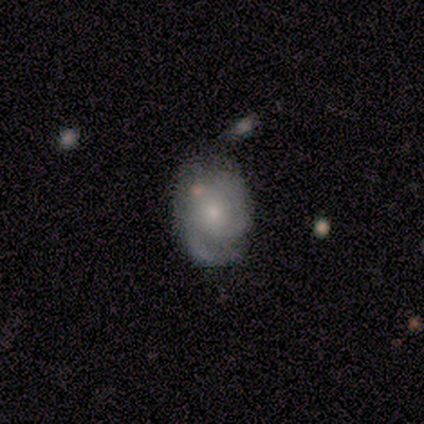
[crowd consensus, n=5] Smooth or featured: featured or disk — 80% (smooth — 20%)
Edge-on disk: no — 100%
Bar: no — 100%
Spiral arms: yes — 100%
Spiral winding: tight — 50% (tied with medium — 50%)
Spiral arm count: 3 — 50% (2 — 25%)
Bulge size: moderate — 50% (tied with small — 50%)
Merging: none — 100%